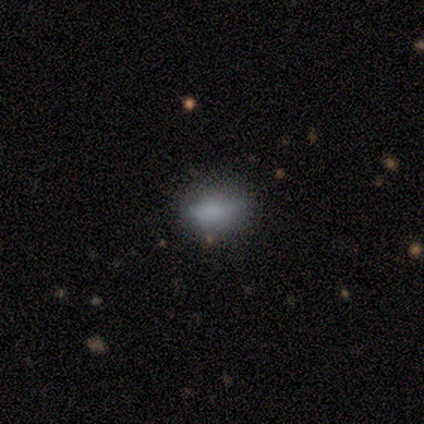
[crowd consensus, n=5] Smooth or featured: smooth — 100%
How rounded: in between — 80% (round — 20%)
Merging: none — 80% (minor disturbance — 20%)